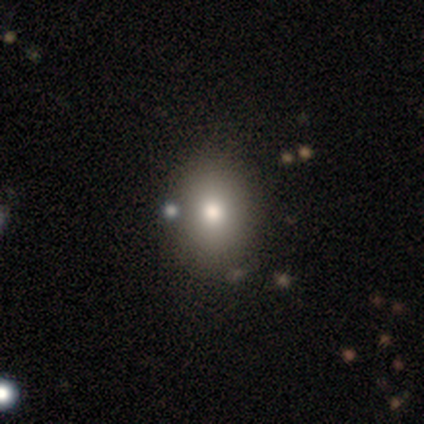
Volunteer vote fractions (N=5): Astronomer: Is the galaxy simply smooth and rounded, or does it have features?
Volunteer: smooth — 60%.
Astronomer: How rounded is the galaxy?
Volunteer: in between — 67%.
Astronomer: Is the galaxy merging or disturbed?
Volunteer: none — 100%.